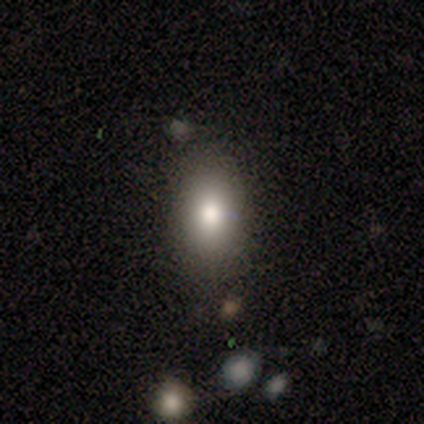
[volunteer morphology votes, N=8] This appears to be a smooth galaxy with no disk features (62%) that is in between round and cigar-shaped (60%). Merging: none (86%).